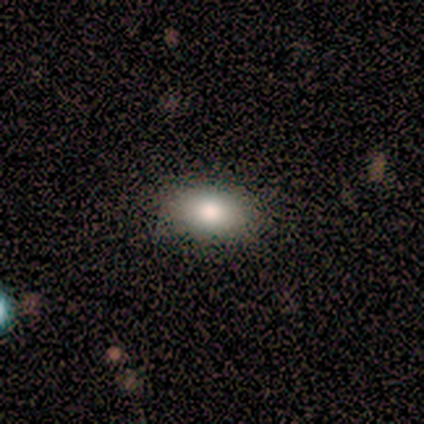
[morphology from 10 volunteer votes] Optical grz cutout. It shows a smooth galaxy with no disk features (80%) that is in between round and cigar-shaped (88%). Merging: none (89%).